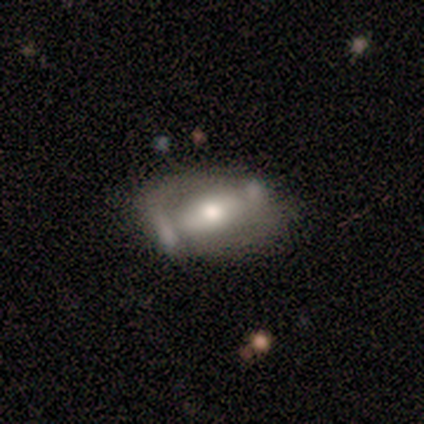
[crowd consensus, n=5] Q: Smooth or featured?
A: featured or disk (80%); runner-up: smooth (20%)
Q: Edge-on disk?
A: no (75%); runner-up: yes (25%)
Q: Bar?
A: strong (67%); runner-up: weak (33%)
Q: Spiral arms?
A: yes (67%); runner-up: no (33%)
Q: Spiral winding?
A: tight (50%); tied with: medium (50%)
Q: Spiral arm count?
A: 1 (50%); tied with: 2 (50%)
Q: Bulge size?
A: large (33%); tied with: moderate (33%); small (33%)
Q: Merging?
A: none (60%); runner-up: minor disturbance (20%)